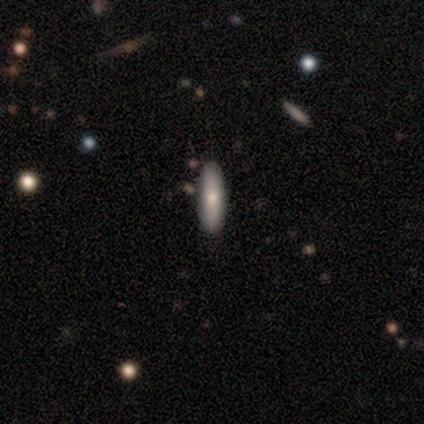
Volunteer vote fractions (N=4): This appears to be a smooth galaxy with no disk features (50%, tied with featured or disk) that is cigar-shaped (100%). Merging: none (75%).